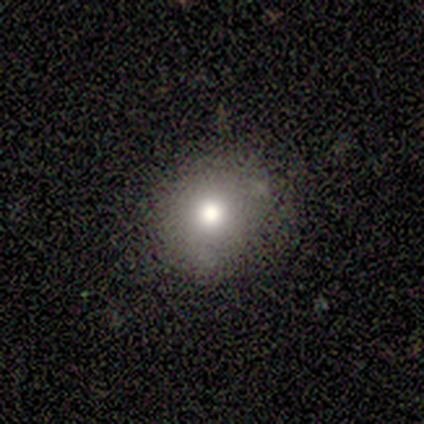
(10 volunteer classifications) Smooth or featured? 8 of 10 (80%) said smooth. How rounded? 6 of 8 (75%) said round. Merging? 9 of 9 (100%) said none.